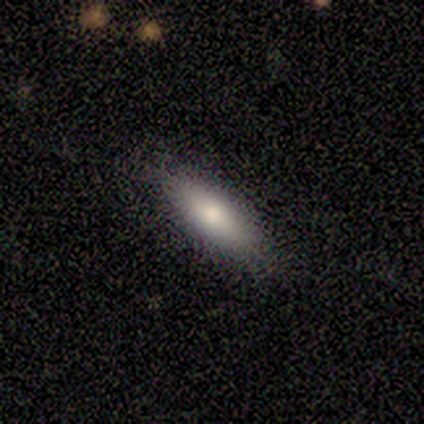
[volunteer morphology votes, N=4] This appears to be a smooth galaxy with no disk features (100%) that is cigar-shaped (75%). Merging: none (100%).